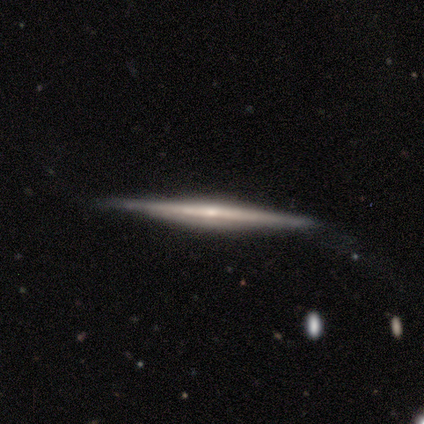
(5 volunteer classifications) Smooth or featured: featured or disk — 100%
Edge-on disk: yes — 100%
Edge-on bulge: rounded — 80% (none — 20%)
Merging: none — 60% (minor disturbance — 20%)